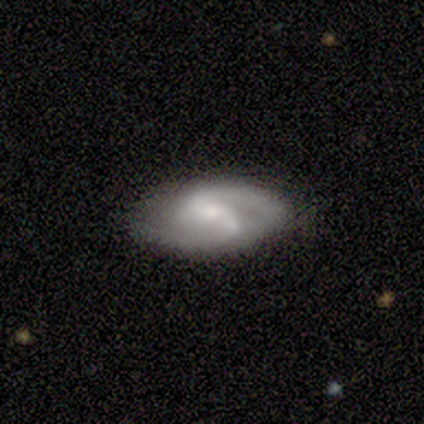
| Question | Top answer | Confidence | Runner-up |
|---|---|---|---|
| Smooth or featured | featured or disk | 100% | — |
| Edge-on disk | no | 100% | — |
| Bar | weak | 60% | strong (40%) |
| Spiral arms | yes | 80% | no (20%) |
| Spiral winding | medium | 75% | loose (25%) |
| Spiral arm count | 2 | 75% | can't tell (25%) |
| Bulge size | small | 80% | large (20%) |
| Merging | none | 80% | minor disturbance (20%) |